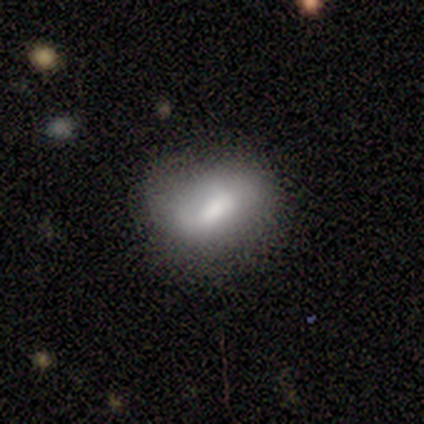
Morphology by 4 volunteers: featured or disk 75%, smooth 25%, star or artifact 0%. Down the decision tree: edge-on disk — no (100%); bar — strong (33%, tied with weak and no); spiral arms — no (67%); bulge size — large (33%, tied with moderate and none); merging — minor disturbance (50%).